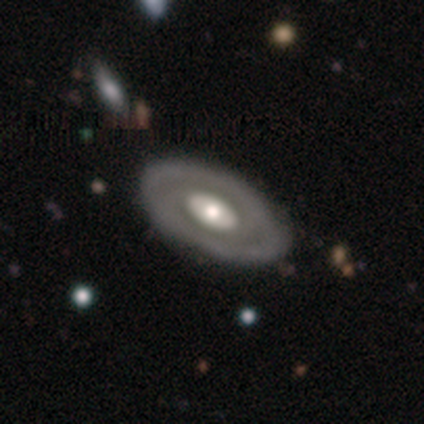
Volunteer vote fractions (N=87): Smooth or featured?
  - featured or disk: 78% *
  - smooth: 20%
  - star or artifact: 2%
Edge-on disk?
  - no: 87% *
  - yes: 13%
Bar?
  - no: 80% *
  - weak: 15%
  - strong: 5%
Spiral arms?
  - no: 66% *
  - yes: 34%
Bulge size?
  - moderate: 63% *
  - large: 27%
  - small: 8%
  - dominant: 2%
  - none: 0%
Merging?
  - none: 86% *
  - minor disturbance: 8%
  - major disturbance: 6%
  - merger: 0%